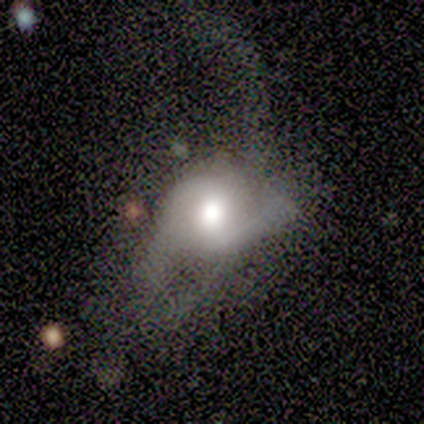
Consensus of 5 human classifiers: featured or disk 60%, smooth 40%, star or artifact 0%. Down the decision tree: edge-on disk — no (100%); bar — no (67%); spiral arms — yes (100%); spiral arm count — 2 (100%); spiral winding — medium (67%); bulge size — moderate (67%); merging — major disturbance (60%).